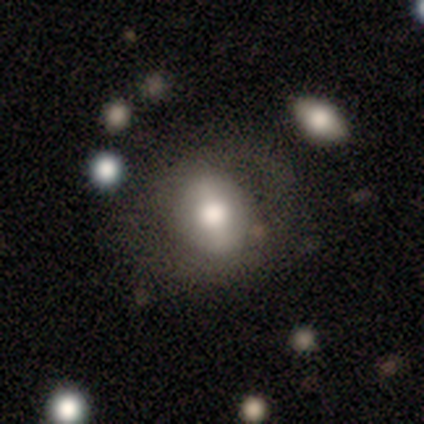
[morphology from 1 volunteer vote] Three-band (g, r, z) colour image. It shows a featured or disk galaxy (100%) with a weak bar (100%), no spiral arms (100%) and a moderate central bulge (100%). Merging: major disturbance (100%).